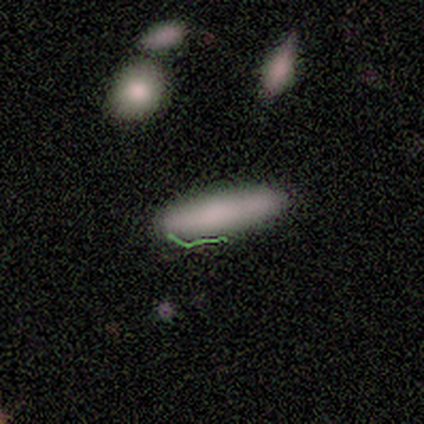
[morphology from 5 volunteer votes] Smooth or featured? 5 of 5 (100%) said smooth. How rounded? 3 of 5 (60%) said in between. Merging? 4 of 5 (80%) said none.